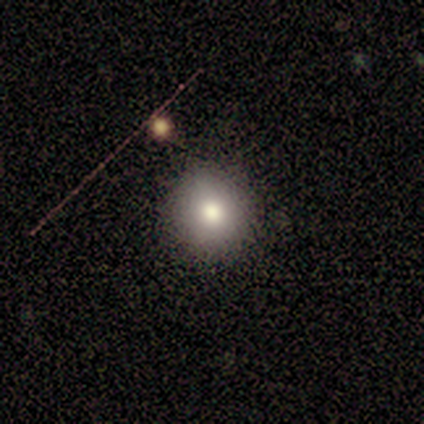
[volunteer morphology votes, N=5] type=smooth (100%); roundness=round (80%); merging=none (80%).